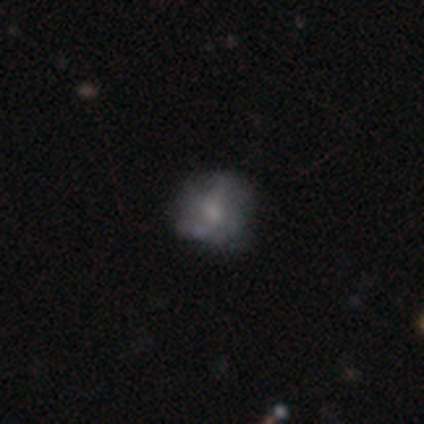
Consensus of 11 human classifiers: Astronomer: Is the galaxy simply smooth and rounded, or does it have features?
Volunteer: featured or disk — 64%.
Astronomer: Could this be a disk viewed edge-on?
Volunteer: no — 100%.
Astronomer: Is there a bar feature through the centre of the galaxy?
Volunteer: no — 100%.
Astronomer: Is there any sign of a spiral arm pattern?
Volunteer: no — 57% (runner-up: yes, 43%).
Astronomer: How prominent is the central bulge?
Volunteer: moderate — 57%.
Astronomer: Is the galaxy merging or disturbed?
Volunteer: none — 67%.